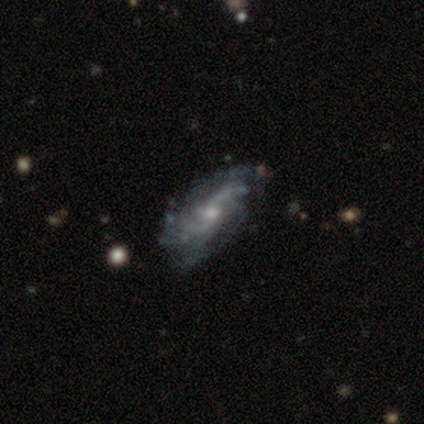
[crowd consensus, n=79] This is clearly a featured or disk galaxy (89%). It is clearly not viewed edge-on (94%). Bar: likely no (70%). Spiral arm pattern: clearly yes (91%). Spiral arm count: marginally can't tell (43%). Spiral winding: marginally loose (38%). Central bulge: likely small (67%). Merging: marginally none (43%).